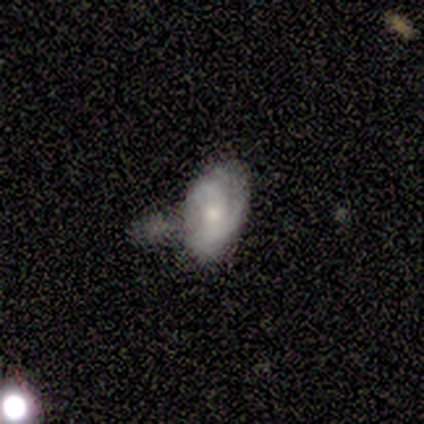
featured or disk 50%, smooth 33%, star or artifact 17%. Down the decision tree: edge-on disk — no (67%); bar — weak (50%, tied with no); spiral arms — yes (50%, tied with no); spiral arm count — 2 (100%); spiral winding — tight (100%); bulge size — small (100%); merging — merger (60%).